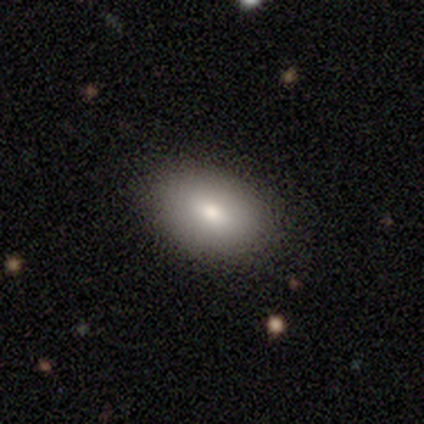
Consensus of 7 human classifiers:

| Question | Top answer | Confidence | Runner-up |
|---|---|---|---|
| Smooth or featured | smooth | 86% | star or artifact (14%) |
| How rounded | in between | 100% | — |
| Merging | none | 83% | major disturbance (17%) |